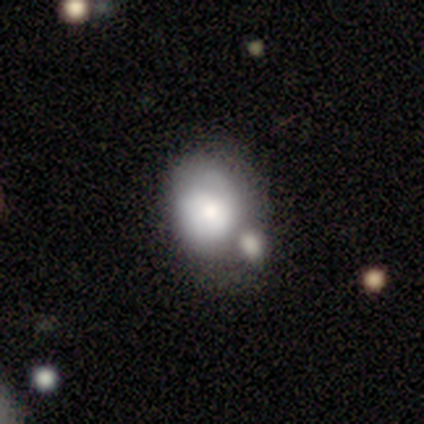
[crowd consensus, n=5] Morphology: type=smooth (60%); roundness=round (67%); merging=merger (50%).